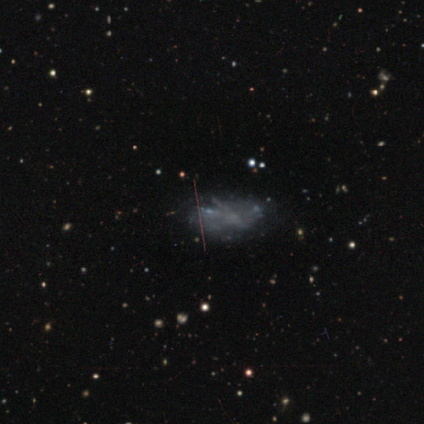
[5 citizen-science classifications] Smooth or featured?
  - featured or disk: 60% *
  - smooth: 20%
  - star or artifact: 20%
Edge-on disk?
  - no: 100% *
  - yes: 0%
Bar?
  - no: 100% *
  - strong: 0%
  - weak: 0%
Spiral arms?
  - no: 100% *
  - yes: 0%
Bulge size?
  - none: 100% *
  - dominant: 0%
  - large: 0%
  - moderate: 0%
  - small: 0%
Merging?
  - none: 75% *
  - minor disturbance: 25%
  - major disturbance: 0%
  - merger: 0%